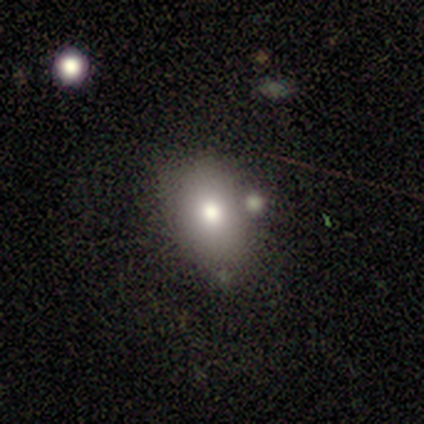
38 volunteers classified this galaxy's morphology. A smooth galaxy with no disk features (68%) that is in between round and cigar-shaped (73%). Merging: none (76%).